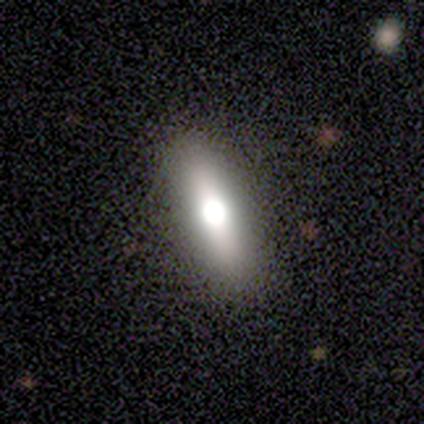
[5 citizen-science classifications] Smooth or featured? smooth (40%, tied with featured or disk)
How rounded? cigar-shaped (100%)
Merging? none (100%)